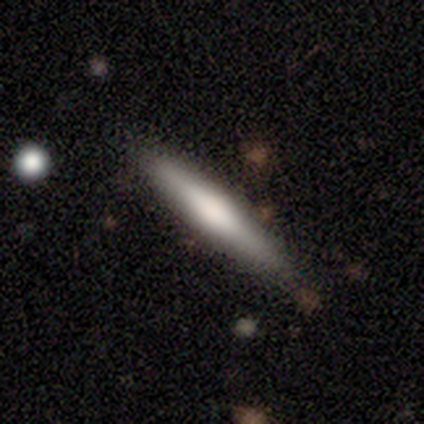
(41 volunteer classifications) Smooth or featured: smooth — 54% (featured or disk — 46%)
How rounded: cigar-shaped — 77% (in between — 23%)
Merging: none — 78% (minor disturbance — 20%)